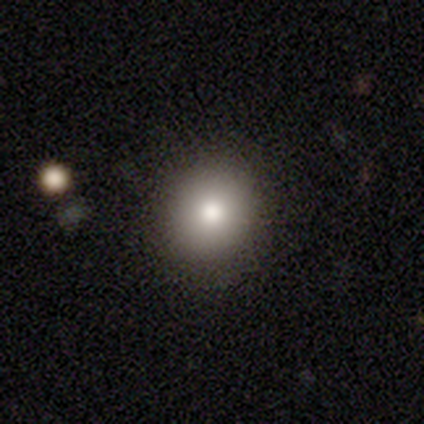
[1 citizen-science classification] Smooth or featured: smooth — 100%
How rounded: round — 100%
Merging: none — 100%